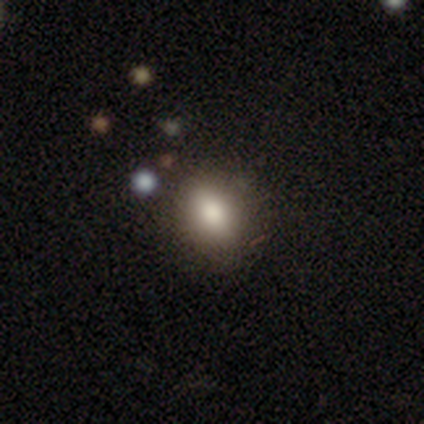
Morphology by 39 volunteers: Smooth or featured? 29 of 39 (74%) said smooth. How rounded? 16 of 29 (55%) said in between. Merging? 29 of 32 (91%) said none.